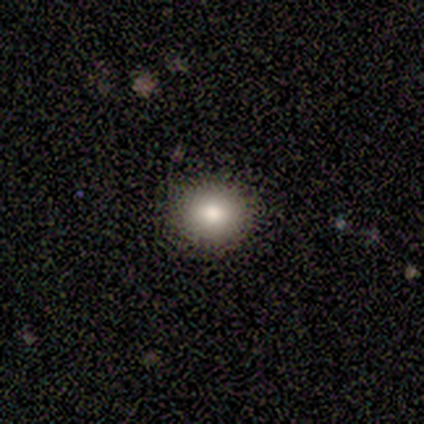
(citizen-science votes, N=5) This appears to be a smooth galaxy with no disk features (80%) that is round (100%). Merging: none (100%).